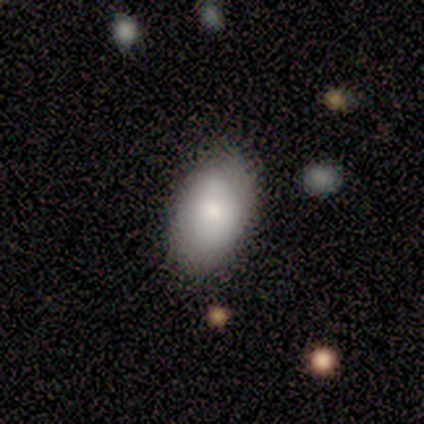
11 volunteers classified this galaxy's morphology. Volunteers were most divided on "smooth or featured": smooth: 73%, star or artifact: 18%, featured or disk: 9%. More confident: how rounded — in between (100%); merging — none (89%).